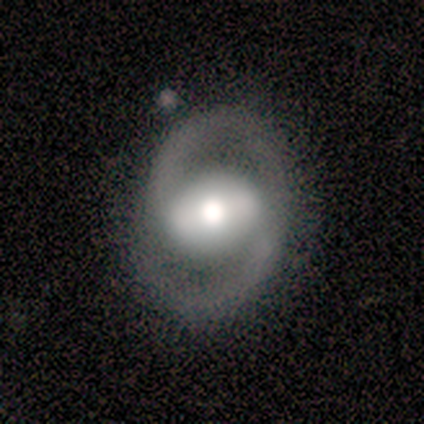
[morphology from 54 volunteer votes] Volunteers were most divided on "bar": strong: 43%, weak: 41%, no: 16%. Remaining: edge-on disk — no (100%); spiral arm count — 2 (97%); spiral arms — yes (84%); smooth or featured — featured or disk (81%); merging — none (80%); spiral winding — medium (70%); bulge size — moderate (45%).